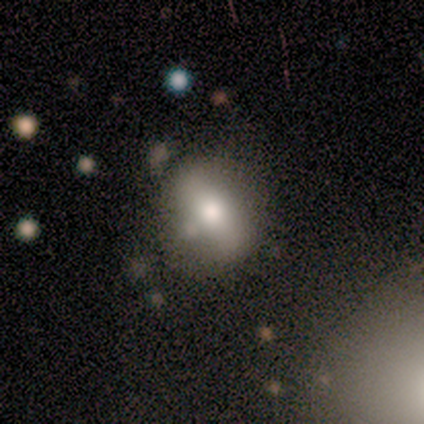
Volunteers were most divided on "how rounded": in between: 60%, round: 40%, cigar-shaped: 0%. More confident: smooth or featured — smooth (62%); merging — none (62%).